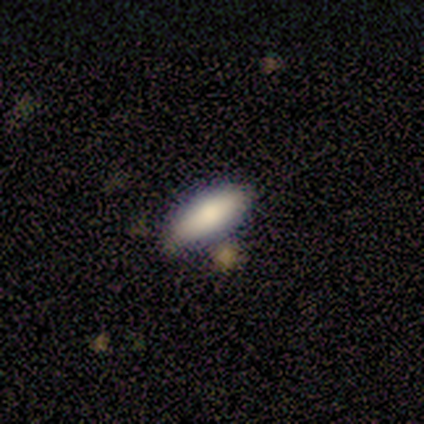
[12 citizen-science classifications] Smooth or featured: smooth — 92% (featured or disk — 8%)
How rounded: in between — 82% (cigar-shaped — 18%)
Merging: none — 75% (minor disturbance — 25%)